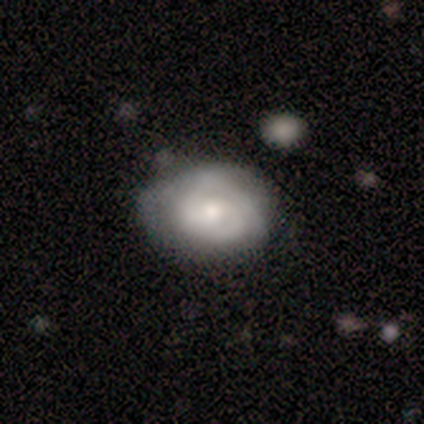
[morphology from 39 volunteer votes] Smooth or featured? 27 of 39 (69%) said featured or disk. Edge-on disk? 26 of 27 (96%) said no. Bar? 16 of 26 (62%) said no. Spiral arms? 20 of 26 (77%) said yes. Spiral winding? 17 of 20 (85%) said tight. Spiral arm count? 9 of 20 (45%) said 2. Bulge size? 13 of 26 (50%) said moderate. Merging? 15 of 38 (39%) said none.